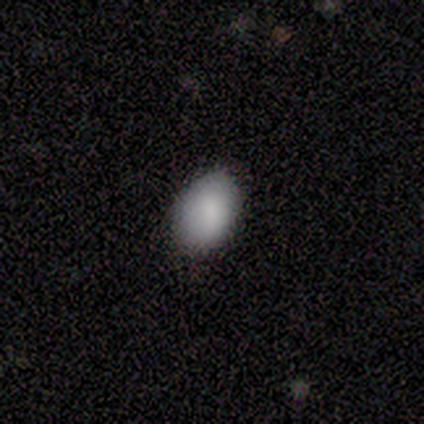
This is clearly a smooth galaxy (100%). How rounded: clearly in between (100%). Merging: clearly none (80%).